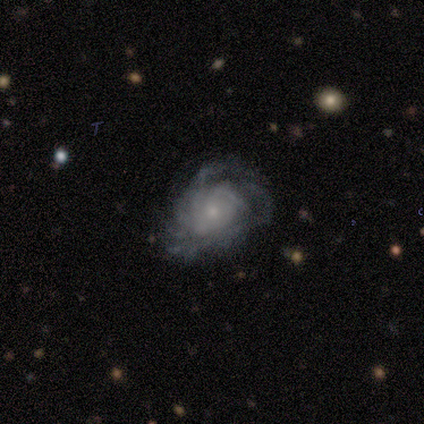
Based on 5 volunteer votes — A featured or disk galaxy (100%) with no bar (80%), more than 4 (40%, tied with can't tell) tight (80%) spiral arms (100%) and a small central bulge (60%). Merging: none (60%).